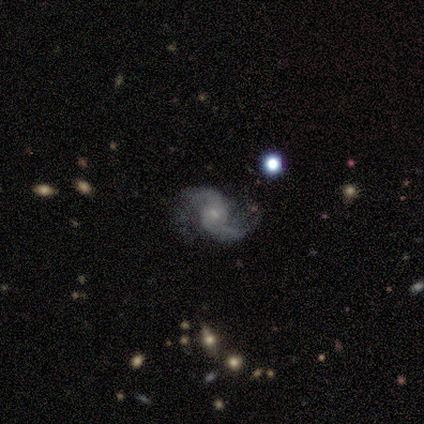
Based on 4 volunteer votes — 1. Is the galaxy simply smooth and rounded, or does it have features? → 100% featured or disk, 0% smooth, 0% star or artifact.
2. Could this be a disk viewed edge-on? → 100% no, 0% yes.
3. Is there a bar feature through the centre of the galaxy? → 50% no, 25% strong, 25% weak.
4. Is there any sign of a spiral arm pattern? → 100% yes, 0% no.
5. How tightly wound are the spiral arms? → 75% loose, 25% medium, 0% tight.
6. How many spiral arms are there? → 100% 2, 0% 1, 0% 3, 0% 4, 0% more than 4, 0% can't tell.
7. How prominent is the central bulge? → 50% moderate (tied), 50% small (tied), 0% dominant, 0% large, 0% none.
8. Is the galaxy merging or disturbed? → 75% none, 25% major disturbance, 0% minor disturbance, 0% merger.